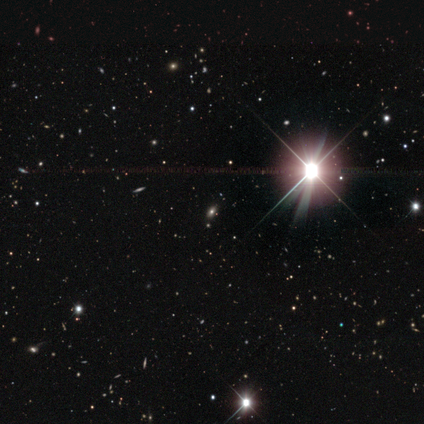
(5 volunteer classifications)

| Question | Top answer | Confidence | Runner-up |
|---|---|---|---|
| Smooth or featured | star or artifact | 60% | smooth (20%) |